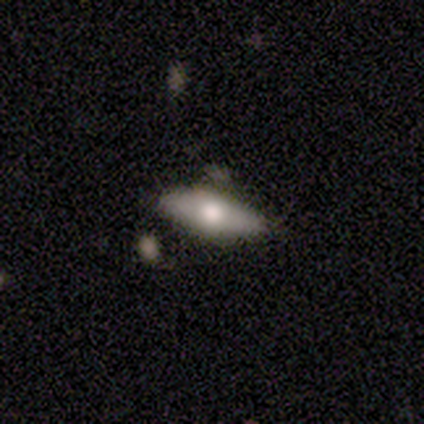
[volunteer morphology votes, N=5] type=featured or disk (60%); edge-on=yes (67%); edge-on bulge=rounded (100%); merging=none (100%).